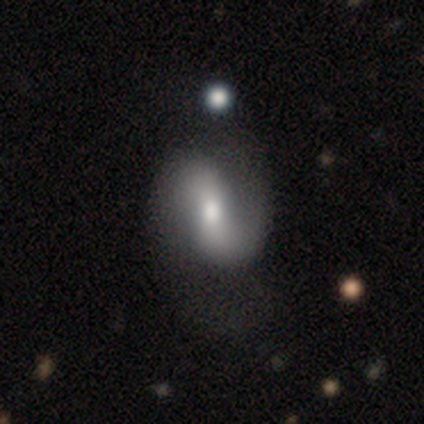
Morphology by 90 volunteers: Volunteers were most divided on "bar": no: 40%, weak: 37%, strong: 23%. More confident: edge-on disk — no (94%); spiral arm count — 2 (92%); spiral arms — yes (77%); smooth or featured — featured or disk (73%); bulge size — moderate (63%); spiral winding — loose (62%); merging — none (54%).